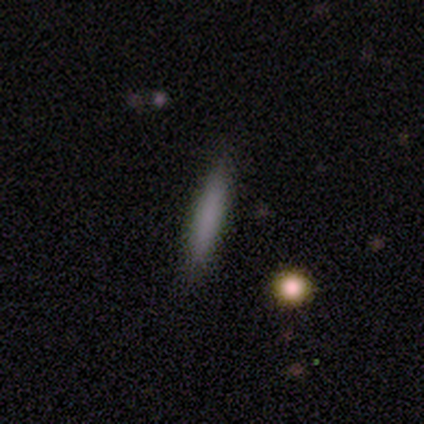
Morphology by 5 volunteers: A smooth galaxy with no disk features (60%) that is cigar-shaped (100%). Merging: none (80%).